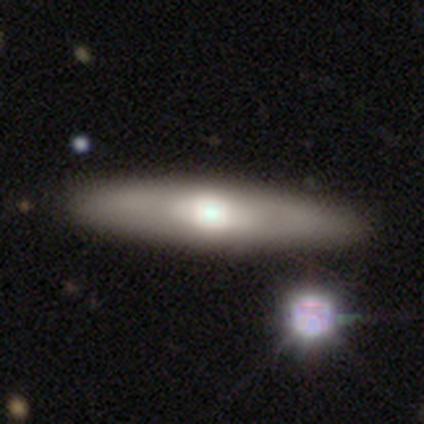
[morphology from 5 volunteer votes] Smooth or featured? 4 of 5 (80%) said featured or disk. Edge-on disk? 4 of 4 (100%) said yes. Edge-on bulge? 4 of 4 (100%) said rounded. Merging? 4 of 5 (80%) said none.